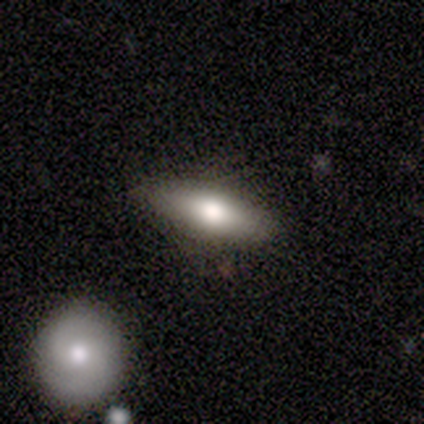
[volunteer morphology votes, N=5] A smooth galaxy with no disk features (80%) that is in between round and cigar-shaped (50%, tied with cigar-shaped).

Vote fractions:
- Smooth or featured? smooth: 80% / featured or disk: 20% / star or artifact: 0%
- How rounded? in between: 50% (tied) / cigar-shaped: 50% (tied) / round: 0%
- Merging? none: 80% / minor disturbance: 20% / major disturbance: 0% / merger: 0%